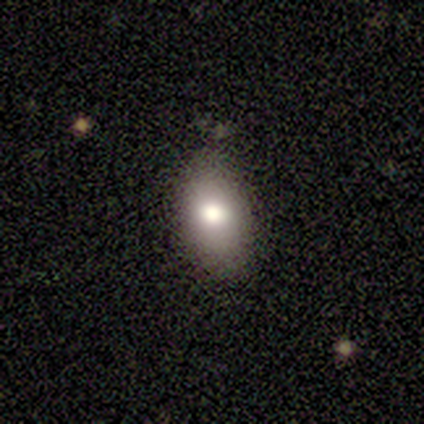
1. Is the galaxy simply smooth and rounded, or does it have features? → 60% smooth, 20% featured or disk, 20% star or artifact.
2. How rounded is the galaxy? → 67% in between, 33% cigar-shaped, 0% round.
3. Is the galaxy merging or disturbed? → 50% none, 25% minor disturbance, 25% merger, 0% major disturbance.